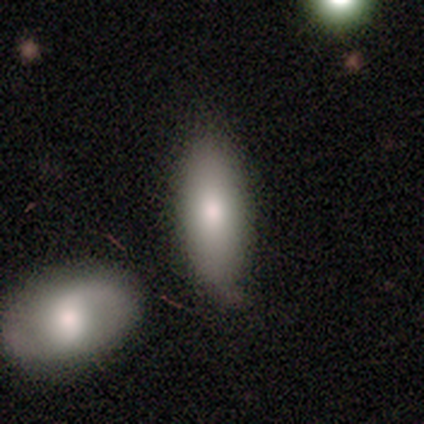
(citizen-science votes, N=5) Smooth or featured? 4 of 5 (80%) said smooth. How rounded? 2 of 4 (50%, tied with cigar-shaped) said in between. Merging? 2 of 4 (50%) said minor disturbance.